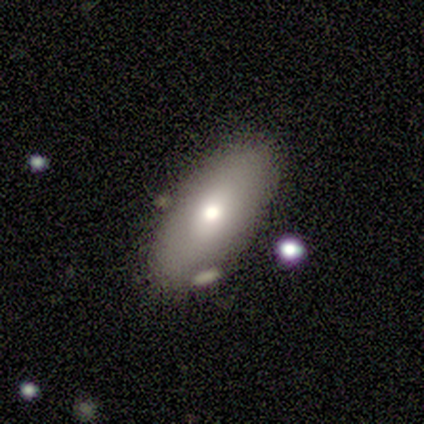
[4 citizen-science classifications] Smooth or featured? smooth (100%)
How rounded? in between (75%)
Merging? none (100%)